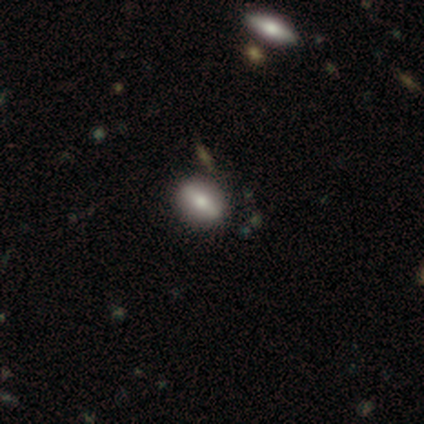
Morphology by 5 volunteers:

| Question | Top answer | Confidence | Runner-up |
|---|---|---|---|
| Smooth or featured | smooth | 80% | featured or disk (20%) |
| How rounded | in between | 75% | round (25%) |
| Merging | none | 60% | minor disturbance (40%) |